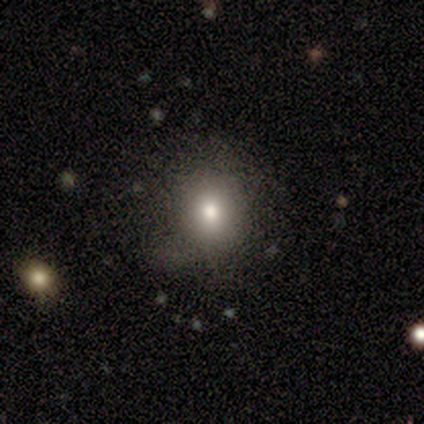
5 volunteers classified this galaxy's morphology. This appears to be a featured or disk galaxy (40%, tied with star or artifact) with no bar (100%), 3 (100%) medium (100%) spiral arms (50%, tied with no) and a moderate central bulge (50%, tied with small). Merging: none (100%).